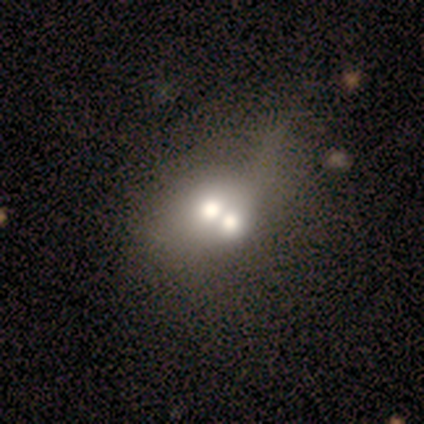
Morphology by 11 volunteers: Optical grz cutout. It shows a smooth galaxy with no disk features (55%) that is in between round and cigar-shaped (67%). Merging: merger (75%).